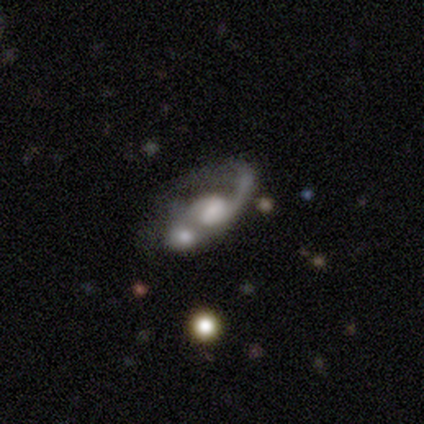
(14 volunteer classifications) This is clearly a featured or disk galaxy (86%). It is clearly not viewed edge-on (100%). Bar: likely no (67%). Spiral arm pattern: likely yes (75%). Spiral arm count: possibly 1 (56%). Spiral winding: likely medium (78%). Central bulge: marginally large (42%). Merging: likely merger (62%).